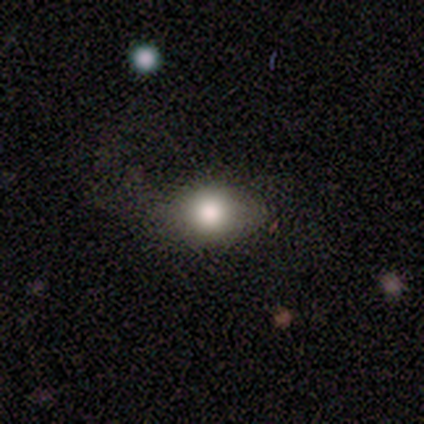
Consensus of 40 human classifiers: Q: Smooth or featured?
A: smooth (75%); runner-up: featured or disk (20%)
Q: How rounded?
A: in between (67%); runner-up: round (30%)
Q: Merging?
A: none (61%); runner-up: major disturbance (26%)